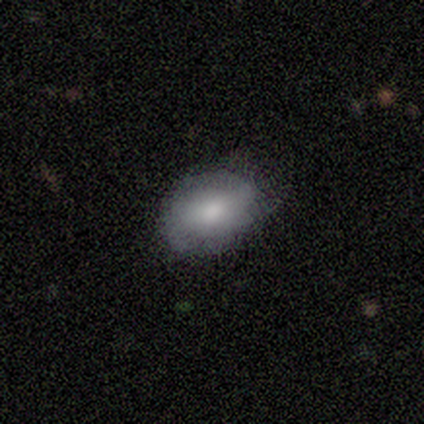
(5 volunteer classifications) This appears to be a smooth galaxy with no disk features (80%) that is in between round and cigar-shaped (100%). Merging: none (80%).